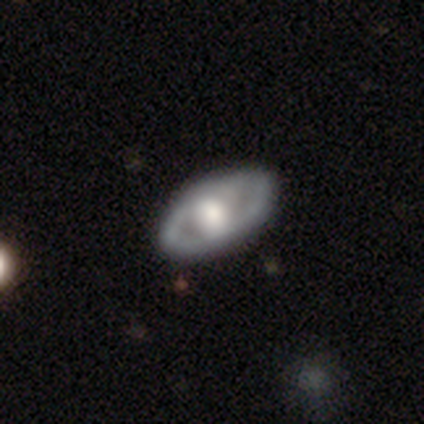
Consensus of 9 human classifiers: Volunteers were most divided on "smooth or featured": featured or disk: 67%, smooth: 33%, star or artifact: 0%. More confident: merging — none (89%); edge-on disk — no (83%); bar — no (80%); spiral arms — no (80%); bulge size — large (80%).